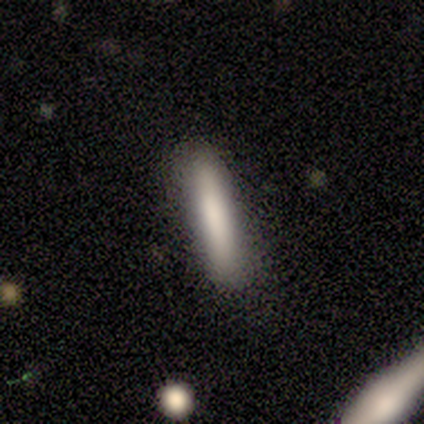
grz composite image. It shows a smooth galaxy with no disk features (80%) that is cigar-shaped (100%). Merging: none (80%).